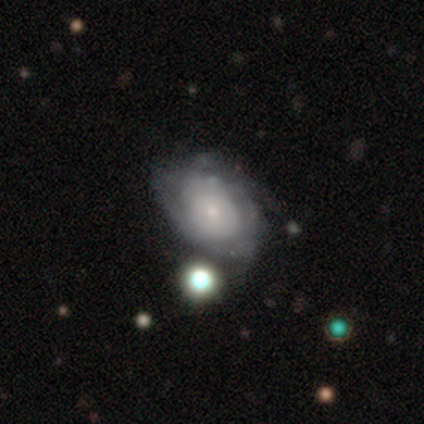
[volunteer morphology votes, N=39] This appears to be a featured or disk galaxy (82%) with no bar (84%), tight (43%, tied with medium) spiral arms (68%) and a small central bulge (74%). Merging: none (50%).